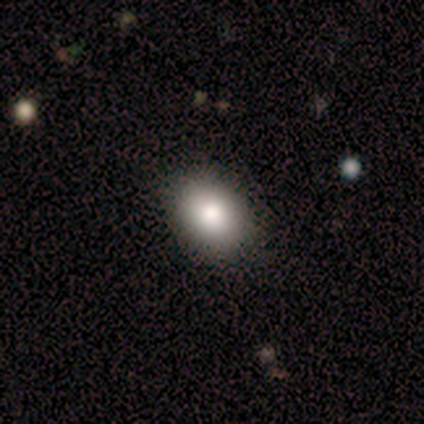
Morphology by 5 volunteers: type=smooth (100%); roundness=in between (60%); merging=none (100%).